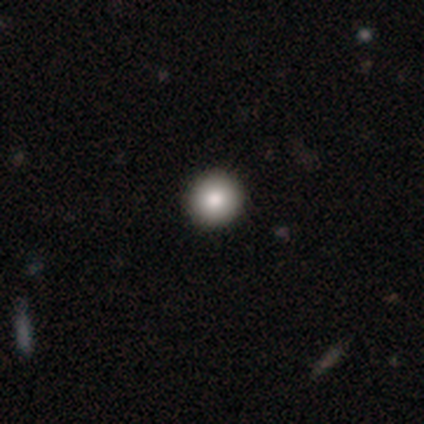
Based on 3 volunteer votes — Smooth or featured? 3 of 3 (100%) said smooth. How rounded? 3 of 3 (100%) said round. Merging? 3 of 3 (100%) said none.